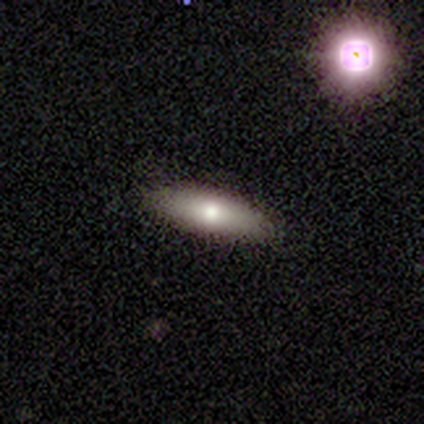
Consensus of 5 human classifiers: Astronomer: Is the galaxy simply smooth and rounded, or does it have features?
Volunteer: smooth — 100%.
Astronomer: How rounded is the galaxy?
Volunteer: cigar-shaped — 80%.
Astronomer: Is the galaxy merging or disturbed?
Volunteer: none — 100%.